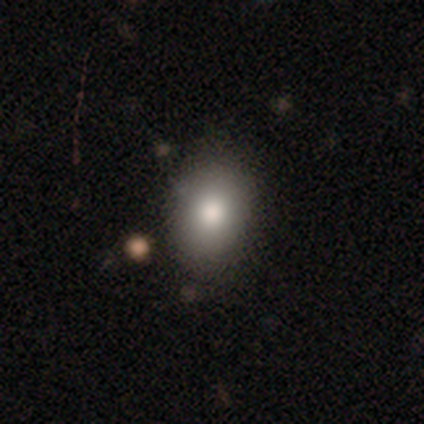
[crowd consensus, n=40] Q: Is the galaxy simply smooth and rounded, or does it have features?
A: smooth — 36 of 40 (90%).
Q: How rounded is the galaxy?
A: in between — 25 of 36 (69%).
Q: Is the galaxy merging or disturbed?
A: none — 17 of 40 (42%).